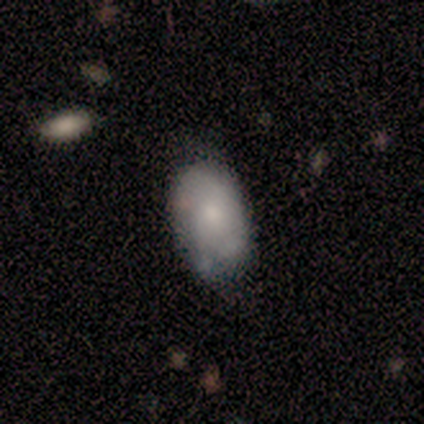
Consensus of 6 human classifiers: Smooth or featured?
  - smooth: 67% *
  - featured or disk: 33%
  - star or artifact: 0%
How rounded?
  - in between: 100% *
  - round: 0%
  - cigar-shaped: 0%
Merging?
  - none: 50% * (tied)
  - minor disturbance: 50% * (tied)
  - major disturbance: 0%
  - merger: 0%